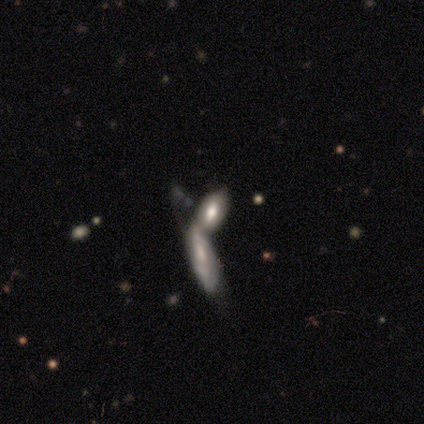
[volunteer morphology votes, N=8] A featured or disk galaxy (50%) with no bar (50%), no spiral arms (100%) and a large central bulge (50%, tied with moderate). Merging: merger (71%).